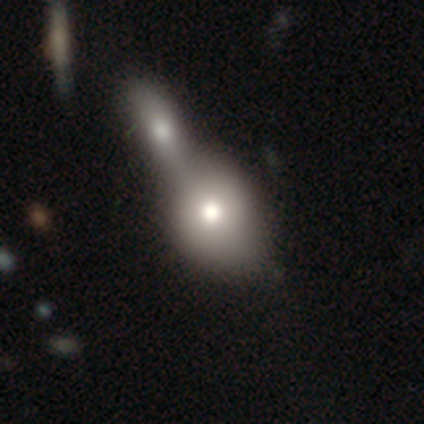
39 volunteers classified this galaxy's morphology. Q: Smooth or featured?
A: smooth (82%); runner-up: featured or disk (18%)
Q: How rounded?
A: in between (56%); runner-up: round (44%)
Q: Merging?
A: merger (77%); runner-up: none (5%)